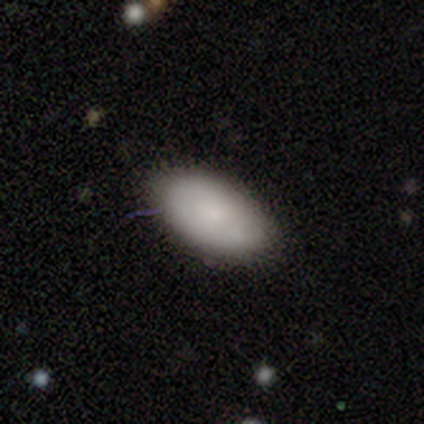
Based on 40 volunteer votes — Smooth or featured: smooth — 80% (featured or disk — 18%)
How rounded: in between — 100%
Merging: none — 85% (minor disturbance — 13%)